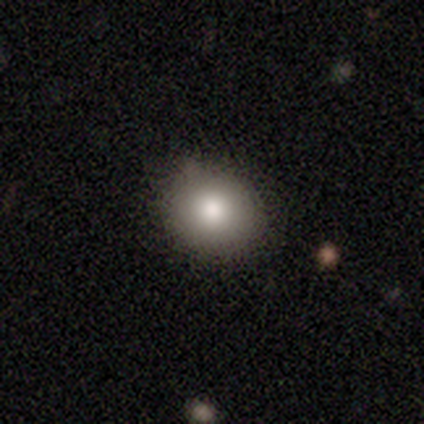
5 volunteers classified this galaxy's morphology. A smooth galaxy with no disk features (100%) that is round (80%).

Vote fractions:
- Smooth or featured? smooth: 100% / featured or disk: 0% / star or artifact: 0%
- How rounded? round: 80% / in between: 20% / cigar-shaped: 0%
- Merging? none: 80% / minor disturbance: 20% / major disturbance: 0% / merger: 0%